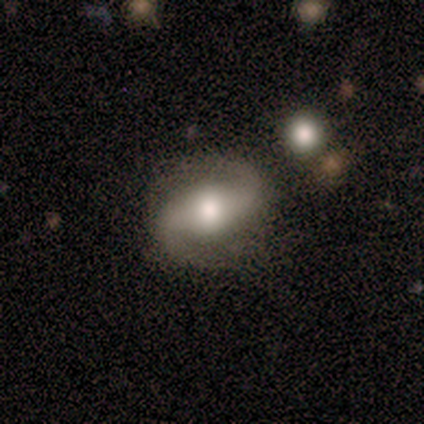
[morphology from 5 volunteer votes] A featured or disk galaxy (80%) with a strong bar (50%, tied with weak), 2 (100%) tight (50%, tied with medium) spiral arms (100%) and a moderate central bulge (75%).

Vote fractions:
- Smooth or featured? featured or disk: 80% / star or artifact: 20% / smooth: 0%
- Edge-on disk? no: 100% / yes: 0%
- Bar? strong: 50% (tied) / weak: 50% (tied) / no: 0%
- Spiral arms? yes: 100% / no: 0%
- Spiral winding? tight: 50% (tied) / medium: 50% (tied) / loose: 0%
- Spiral arm count? 2: 100% / 1: 0% / 3: 0% / 4: 0% / more than 4: 0% / can't tell: 0%
- Bulge size? moderate: 75% / large: 25% / dominant: 0% / small: 0% / none: 0%
- Merging? none: 75% / minor disturbance: 25% / major disturbance: 0% / merger: 0%